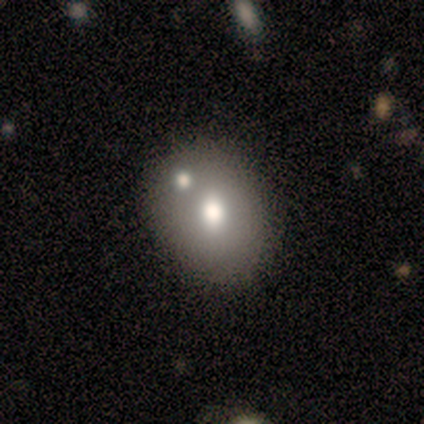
This is likely a smooth galaxy (71%). How rounded: likely round (60%). Merging: likely merger (67%).